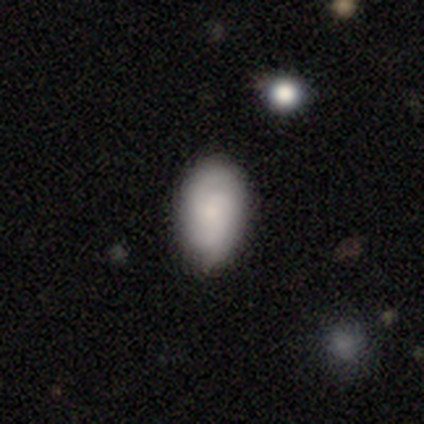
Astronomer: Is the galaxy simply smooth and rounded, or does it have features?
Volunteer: smooth — 69%.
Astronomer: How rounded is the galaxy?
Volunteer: in between — 88%.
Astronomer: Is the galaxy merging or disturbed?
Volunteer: none — 74%.